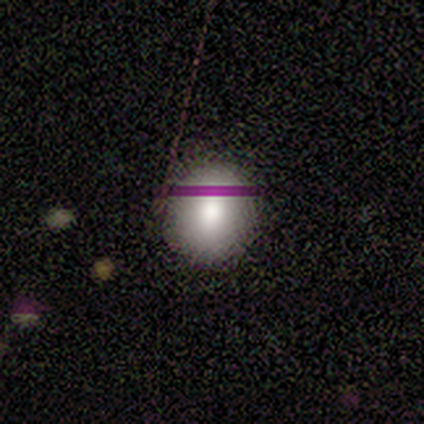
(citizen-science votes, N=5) A smooth galaxy with no disk features (40%, tied with featured or disk) that is round (100%). Merging: none (100%).